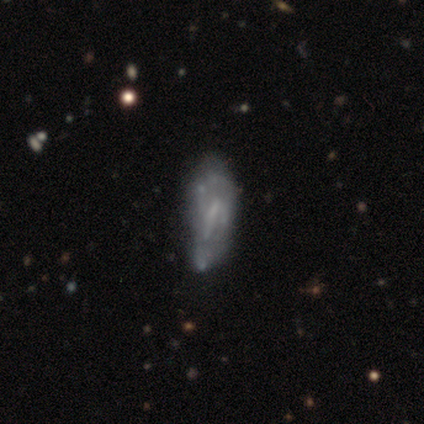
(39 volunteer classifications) A featured or disk galaxy (74%) with a weak bar (39%, tied with no), 2 (47%) medium (60%) spiral arms (54%) and no central bulge (68%).

Vote fractions:
- Smooth or featured? featured or disk: 74% / smooth: 15% / star or artifact: 10%
- Edge-on disk? no: 97% / yes: 3%
- Bar? weak: 39% (tied) / no: 39% (tied) / strong: 21%
- Spiral arms? yes: 54% / no: 46%
- Spiral winding? medium: 60% / tight: 20% / loose: 20%
- Spiral arm count? 2: 47% / can't tell: 40% / 1: 13% / 3: 0% / 4: 0% / more than 4: 0%
- Bulge size? none: 68% / small: 25% / moderate: 7% / dominant: 0% / large: 0%
- Merging? major disturbance: 20% / none: 17% / minor disturbance: 17% / merger: 6%